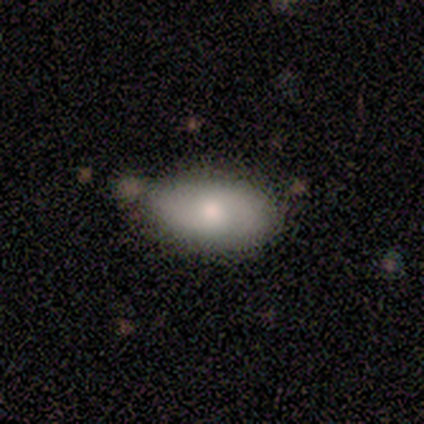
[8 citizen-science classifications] smooth_or_featured: smooth (p=0.88) [alt: star or artifact p=0.12]
how_rounded: in between (p=0.71) [alt: round p=0.14]
merging: none (p=0.57) [alt: minor disturbance p=0.29]